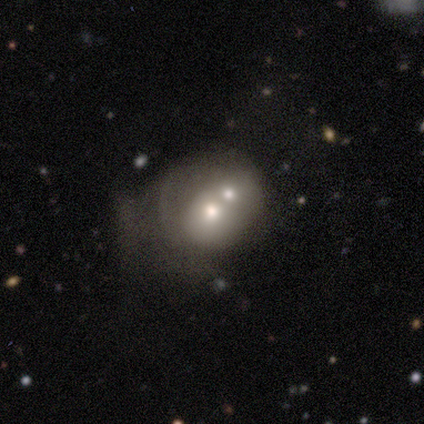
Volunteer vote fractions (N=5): smooth_or_featured: smooth (p=0.60) [alt: featured or disk p=0.40]
how_rounded: round (p=1.00)
merging: merger (p=0.80) [alt: minor disturbance p=0.20]